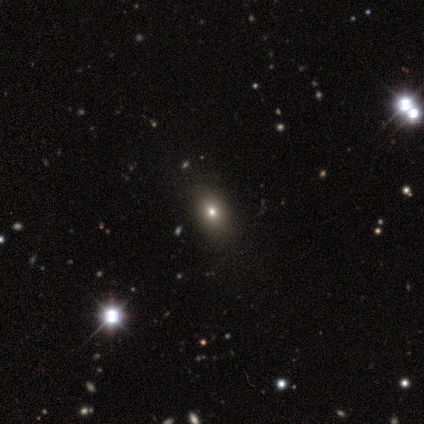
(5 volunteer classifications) Smooth or featured? smooth (60%)
How rounded? in between (67%)
Merging? none (75%)